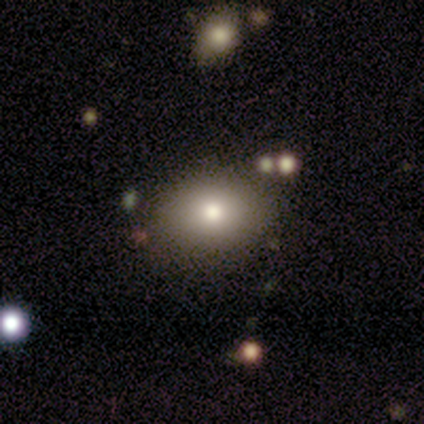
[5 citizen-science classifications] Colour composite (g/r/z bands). It shows a smooth galaxy with no disk features (100%) that is in between round and cigar-shaped (60%). Merging: none (100%).